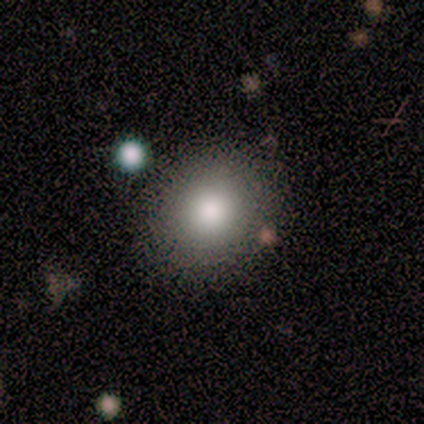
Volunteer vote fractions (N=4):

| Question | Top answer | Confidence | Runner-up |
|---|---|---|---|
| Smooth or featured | smooth | 100% | — |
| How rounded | round | 75% | in between (25%) |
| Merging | none | 100% | — |